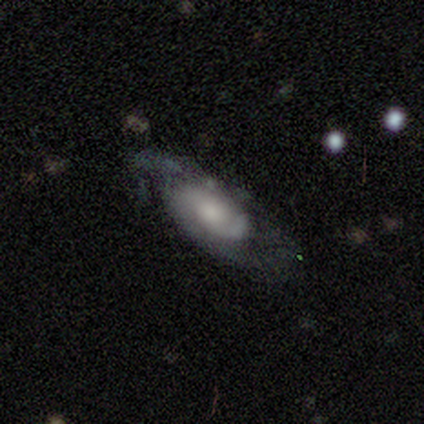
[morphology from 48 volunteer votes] This is likely a featured or disk galaxy (75%). It is clearly not viewed edge-on (94%). Bar: clearly no (85%). Spiral arm pattern: clearly yes (82%). Spiral arm count: marginally 2 (43%). Spiral winding: possibly tight (46%). Central bulge: possibly moderate (56%). Merging: possibly none (53%).